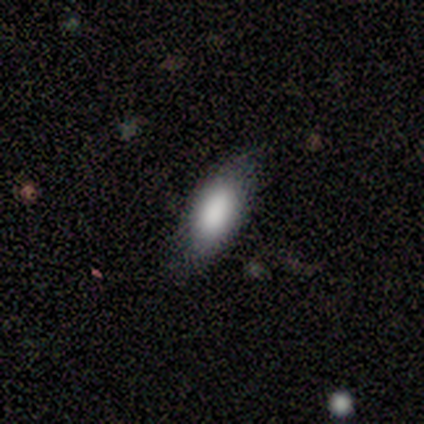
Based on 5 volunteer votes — Morphology: type=smooth (80%); roundness=in between (75%); merging=none (60%).